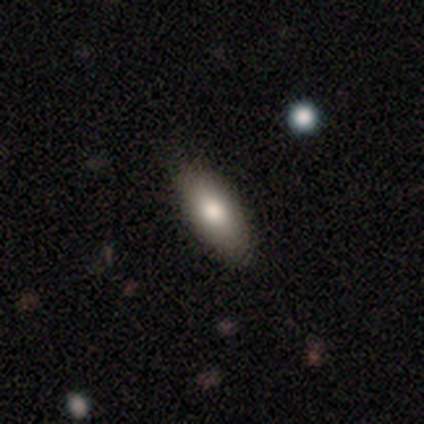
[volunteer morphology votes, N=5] smooth_or_featured: smooth (p=0.60) [alt: featured or disk p=0.40]
how_rounded: cigar-shaped (p=0.67) [alt: in between p=0.33]
merging: none (p=0.80) [alt: merger p=0.20]